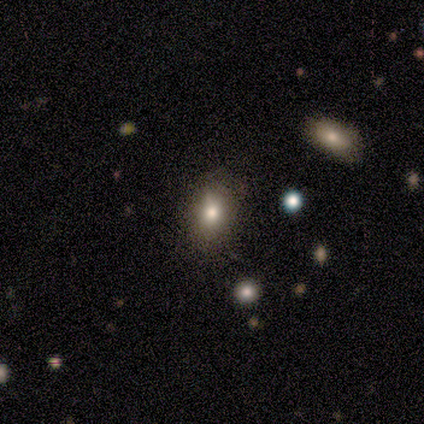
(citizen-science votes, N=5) smooth_or_featured: smooth (p=0.60) [alt: featured or disk p=0.40]
how_rounded: in between (p=1.00)
merging: none (p=0.80) [alt: minor disturbance p=0.20]